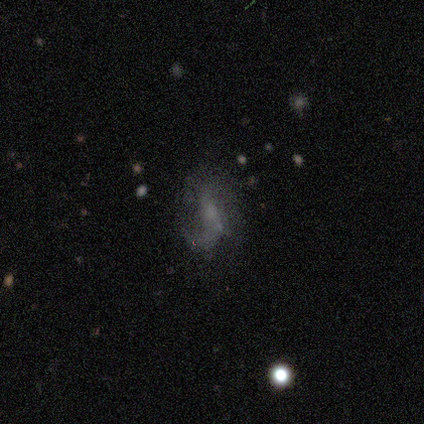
Morphology: type=featured or disk (100%); edge-on=no (100%); bar=weak (50%, tied with no); spiral arms=no (75%); bulge=small (50%); merging=major disturbance (50%).